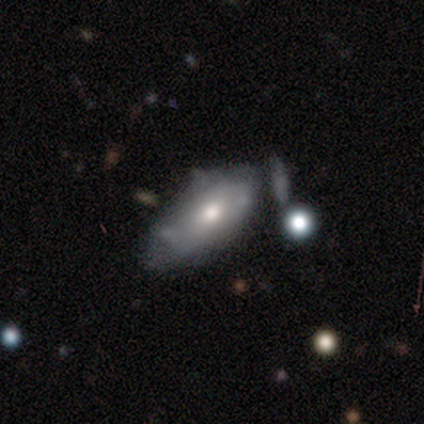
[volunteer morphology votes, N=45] Q: Smooth or featured?
A: smooth (53%); runner-up: featured or disk (44%)
Q: How rounded?
A: in between (92%); runner-up: cigar-shaped (8%)
Q: Merging?
A: none (39%); runner-up: minor disturbance (34%)